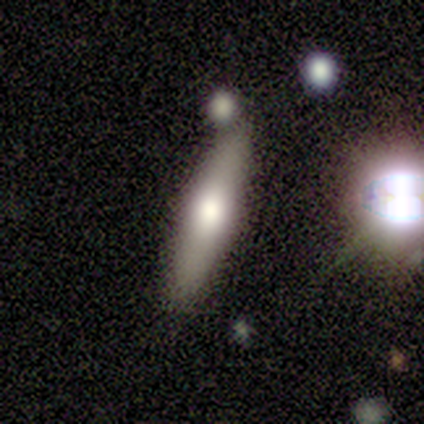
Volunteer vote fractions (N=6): featured or disk 67%, smooth 33%, star or artifact 0%. Down the decision tree: edge-on disk — yes (100%); edge-on bulge — rounded (100%); merging — none (50%).